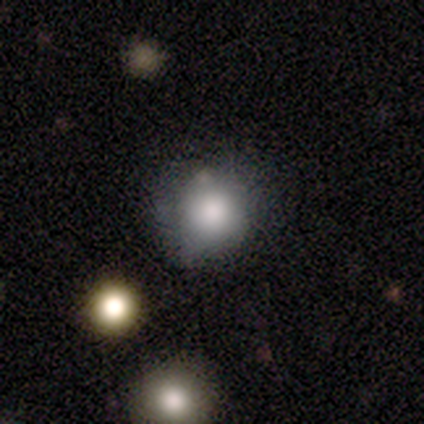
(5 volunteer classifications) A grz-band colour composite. It shows a smooth galaxy with no disk features (100%) that is round (100%). Merging: none (40%, tied with minor disturbance).